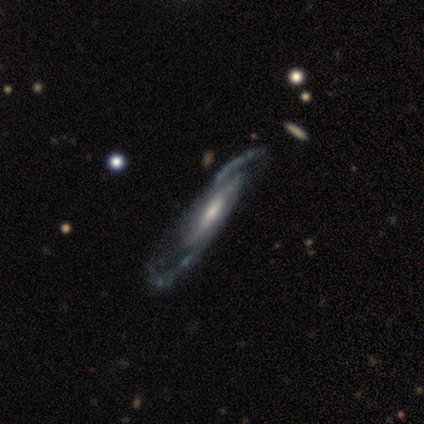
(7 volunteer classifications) Smooth or featured? 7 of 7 (100%) said featured or disk. Edge-on disk? 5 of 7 (71%) said yes. Edge-on bulge? 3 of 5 (60%) said none. Merging? 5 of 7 (71%) said none.